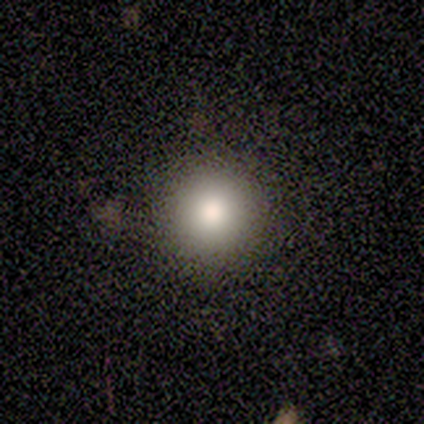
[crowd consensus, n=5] smooth 100%, featured or disk 0%, star or artifact 0%. Down the decision tree: how rounded — round (100%); merging — none (100%).